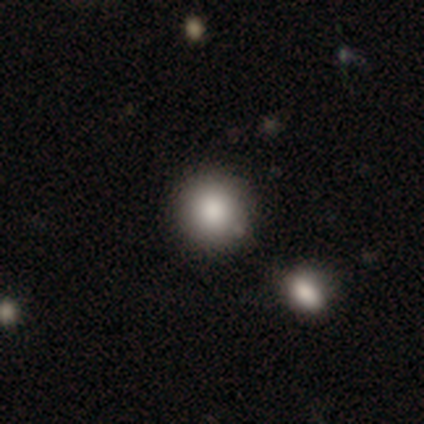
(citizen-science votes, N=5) This is clearly a smooth galaxy (100%). How rounded: clearly round (100%). Merging: likely none (60%).